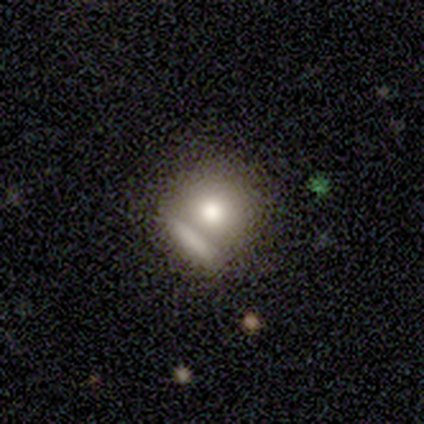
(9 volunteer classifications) Smooth or featured?
  - smooth: 56% *
  - featured or disk: 44%
  - star or artifact: 0%
How rounded?
  - round: 100% *
  - in between: 0%
  - cigar-shaped: 0%
Merging?
  - none: 67% *
  - merger: 22%
  - minor disturbance: 11%
  - major disturbance: 0%